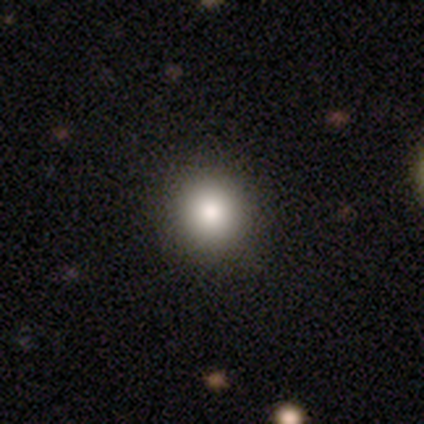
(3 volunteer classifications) A smooth galaxy with no disk features (67%) that is round (100%). Merging: none (100%).